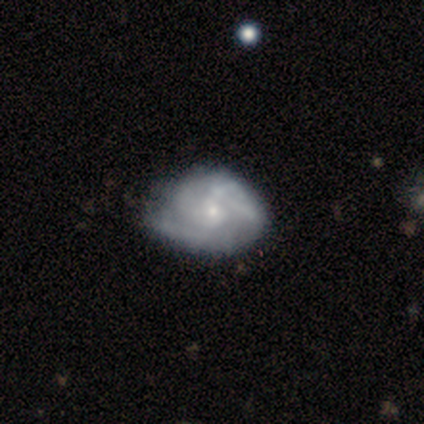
Smooth or featured?
  - featured or disk: 91% *
  - smooth: 9%
  - star or artifact: 0%
Edge-on disk?
  - no: 100% *
  - yes: 0%
Bar?
  - no: 80% *
  - weak: 20%
  - strong: 0%
Spiral arms?
  - yes: 80% *
  - no: 20%
Spiral winding?
  - tight: 62% *
  - medium: 38%
  - loose: 0%
Spiral arm count?
  - can't tell: 50% *
  - 1: 12%
  - 2: 12%
  - 3: 12%
  - 4: 12%
  - more than 4: 0%
Bulge size?
  - small: 60% *
  - moderate: 30%
  - none: 10%
  - dominant: 0%
  - large: 0%
Merging?
  - none: 55% *
  - minor disturbance: 45%
  - major disturbance: 0%
  - merger: 0%